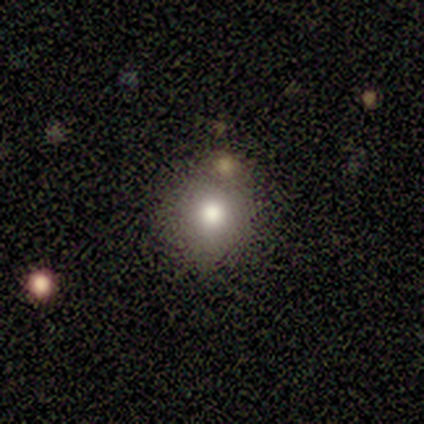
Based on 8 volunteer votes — Smooth or featured: smooth — 75% (featured or disk — 25%)
How rounded: round — 83% (in between — 17%)
Merging: none — 88% (minor disturbance — 12%)